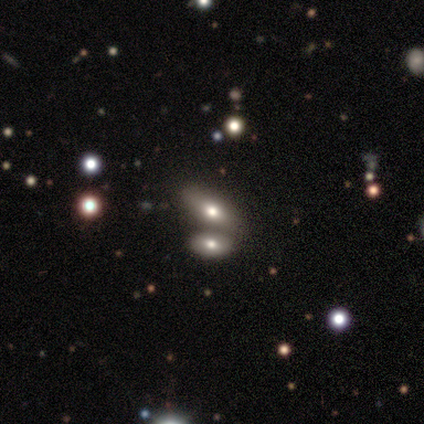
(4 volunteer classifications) Smooth or featured? smooth (75%)
How rounded? round (67%)
Merging? none (50%)